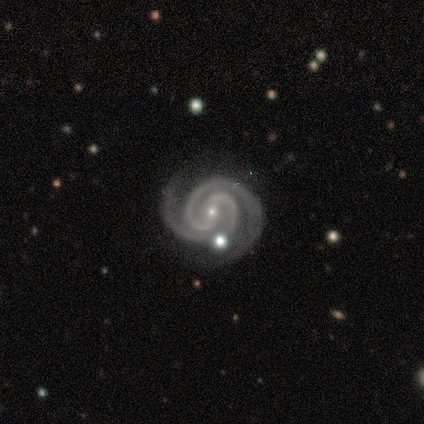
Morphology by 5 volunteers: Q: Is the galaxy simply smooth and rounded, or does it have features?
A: featured or disk — 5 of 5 (100%).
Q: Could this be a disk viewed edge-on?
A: no — 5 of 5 (100%).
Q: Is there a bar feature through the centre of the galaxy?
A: strong — 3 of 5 (60%).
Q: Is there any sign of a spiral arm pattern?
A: yes — 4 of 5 (80%).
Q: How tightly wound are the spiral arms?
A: tight — 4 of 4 (100%).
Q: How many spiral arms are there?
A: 2 — 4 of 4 (100%).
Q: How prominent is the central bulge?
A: small — 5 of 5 (100%).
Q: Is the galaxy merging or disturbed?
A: none — 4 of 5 (80%).